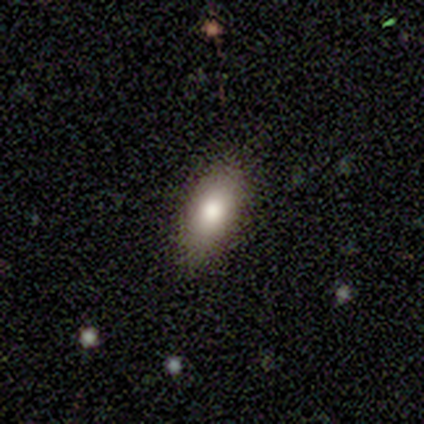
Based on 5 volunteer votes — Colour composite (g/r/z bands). It shows a smooth galaxy with no disk features (100%) that is in between round and cigar-shaped (80%). Merging: none (100%).